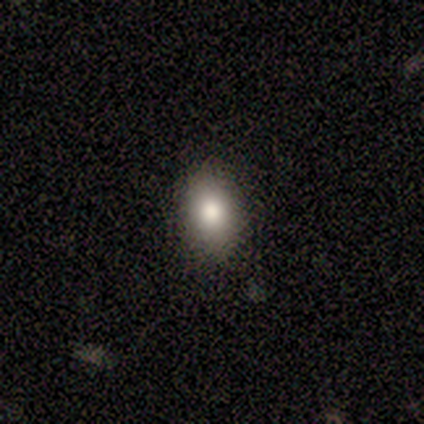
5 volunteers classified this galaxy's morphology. Q: Smooth or featured?
A: smooth (100%)
Q: How rounded?
A: in between (100%)
Q: Merging?
A: none (100%)